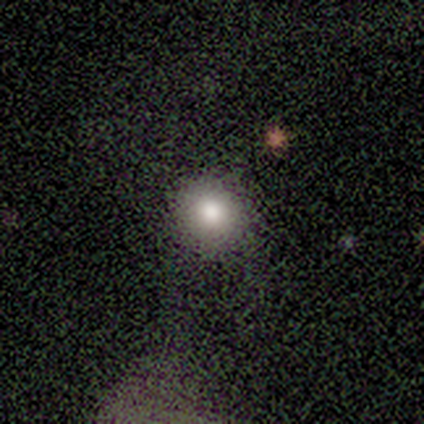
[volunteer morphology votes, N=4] Smooth or featured: smooth — 75% (featured or disk — 25%)
How rounded: round — 100%
Merging: none — 75% (minor disturbance — 25%)